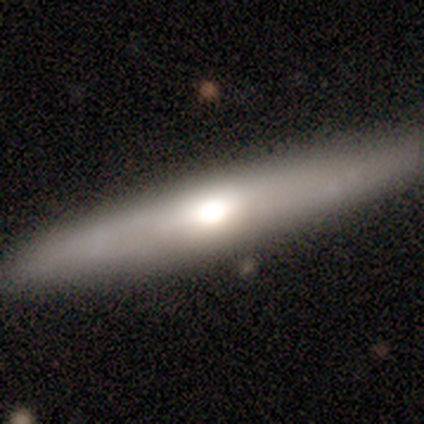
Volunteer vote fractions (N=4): smooth_or_featured: smooth (p=0.50) [tied with: featured or disk p=0.50]
how_rounded: in between (p=0.50) [tied with: cigar-shaped p=0.50]
merging: none (p=1.00)